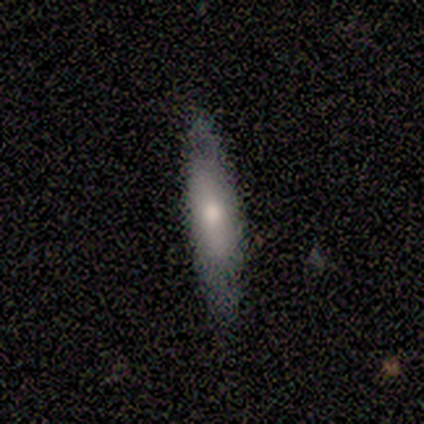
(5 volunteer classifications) smooth-or-featured: smooth: 80% | featured or disk: 20% | star or artifact: 0%
  how-rounded: cigar-shaped: 100% | round: 0% | in between: 0%
  merging: none: 80% | minor disturbance: 20% | major disturbance: 0% | merger: 0%